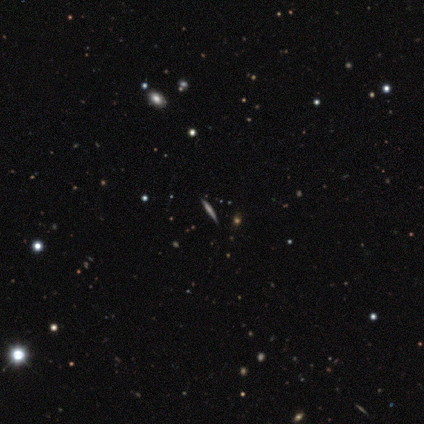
This is possibly a smooth galaxy (50%, tied with featured or disk). How rounded: clearly cigar-shaped (100%). Merging: clearly none (100%).